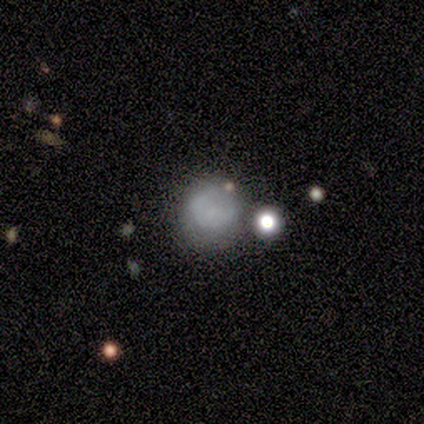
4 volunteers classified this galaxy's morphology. smooth-or-featured: smooth: 100% | featured or disk: 0% | star or artifact: 0%
  how-rounded: round: 75% | in between: 25% | cigar-shaped: 0%
  merging: none: 50% | minor disturbance: 25% | major disturbance: 25% | merger: 0%